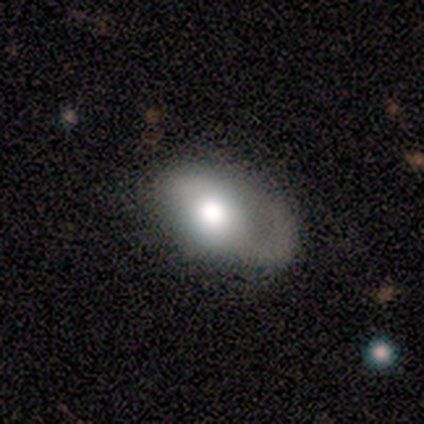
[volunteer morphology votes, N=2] Volunteers were most divided on "merging" (2-way tie): none: 50%, minor disturbance: 50%, major disturbance: 0%, merger: 0%. More confident: smooth or featured — featured or disk (100%); edge-on disk — no (100%); bar — no (100%); spiral arms — no (100%); bulge size — moderate (100%).